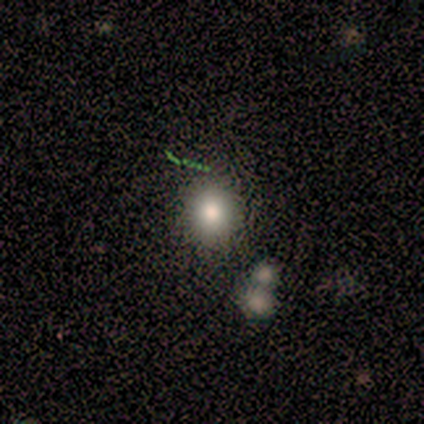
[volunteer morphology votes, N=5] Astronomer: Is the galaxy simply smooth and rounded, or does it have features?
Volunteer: smooth — 100%.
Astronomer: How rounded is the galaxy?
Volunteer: round — 100%.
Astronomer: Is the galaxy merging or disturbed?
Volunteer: none — 80%.